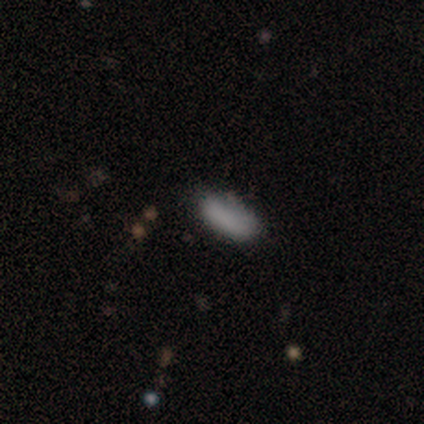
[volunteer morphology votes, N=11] smooth_or_featured: smooth (p=0.91) [alt: featured or disk p=0.09]
how_rounded: in between (p=0.90) [alt: cigar-shaped p=0.10]
merging: none (p=0.64) [alt: minor disturbance p=0.36]